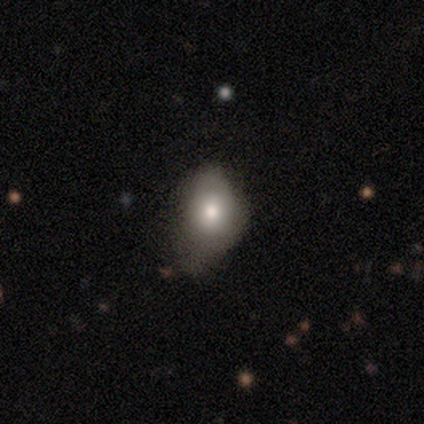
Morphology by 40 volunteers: This is likely a smooth galaxy (68%). How rounded: likely in between (70%). Merging: possibly minor disturbance (56%).